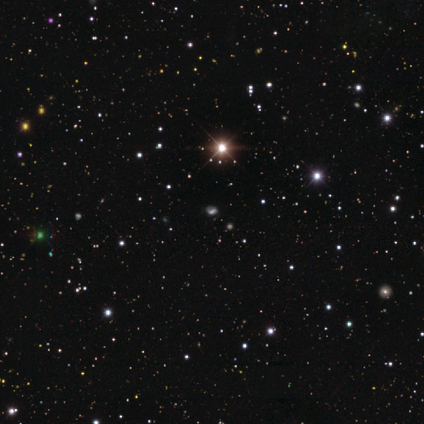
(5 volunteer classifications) Morphology: type=star or artifact (80%).